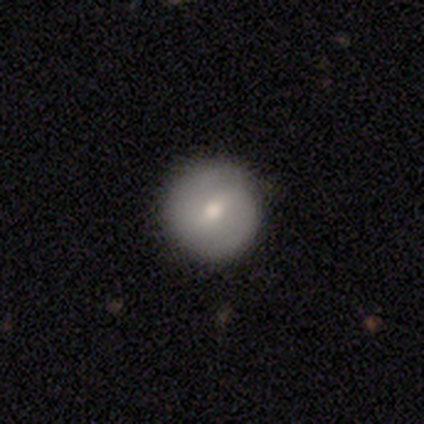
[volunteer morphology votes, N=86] type=smooth (63%); roundness=round (91%); merging=none (90%).